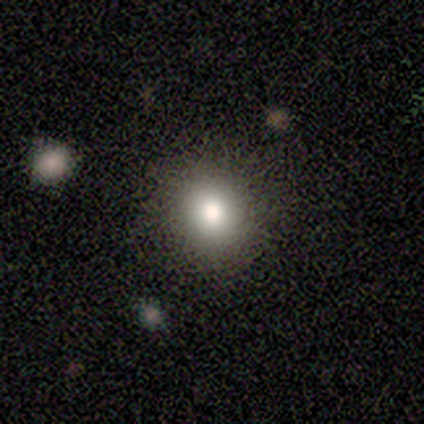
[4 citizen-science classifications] Volunteers were most divided on "smooth or featured" (2-way tie): smooth: 50%, featured or disk: 50%, star or artifact: 0%; "how rounded" (2-way tie): round: 50%, in between: 50%, cigar-shaped: 0%. More confident: merging — none (75%).